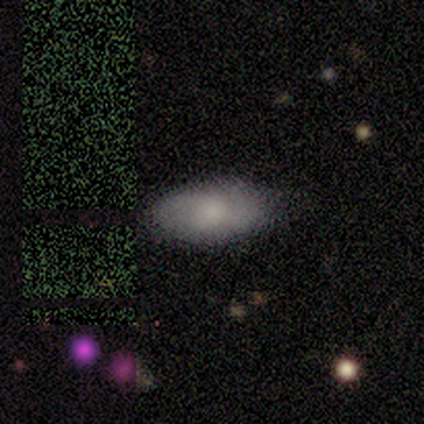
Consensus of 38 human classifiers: Volunteers were most divided on "merging": none: 56%, merger: 11%, minor disturbance: 8%, major disturbance: 0%. More confident: how rounded — in between (90%); smooth or featured — smooth (76%).